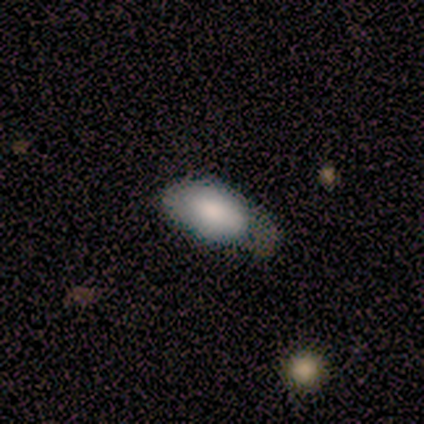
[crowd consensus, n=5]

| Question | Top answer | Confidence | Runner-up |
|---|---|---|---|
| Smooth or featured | smooth | 80% | featured or disk (20%) |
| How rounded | in between | 100% | — |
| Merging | major disturbance | 60% | minor disturbance (40%) |